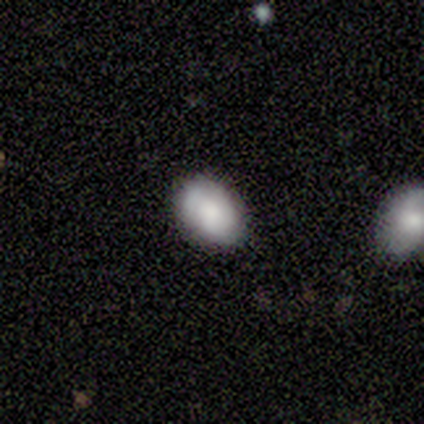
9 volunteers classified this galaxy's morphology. Smooth or featured? smooth (89%)
How rounded? in between (88%)
Merging? none (100%)